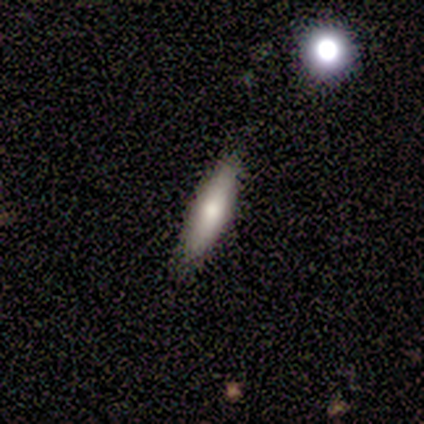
This is clearly a smooth galaxy (80%). How rounded: likely cigar-shaped (75%). Merging: clearly none (80%).